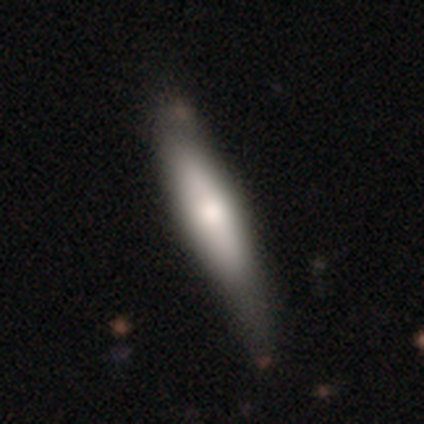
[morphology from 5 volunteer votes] Smooth or featured: smooth — 80% (featured or disk — 20%)
How rounded: cigar-shaped — 75% (round — 25%)
Merging: none — 80% (minor disturbance — 20%)